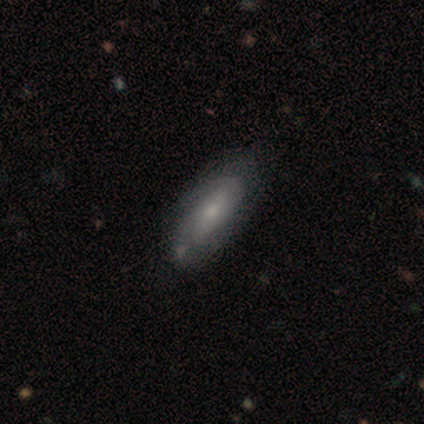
featured or disk 56%, smooth 38%, star or artifact 5%. Down the decision tree: edge-on disk — no (82%); bar — no (50%); spiral arms — yes (83%); spiral arm count — 2 (53%); spiral winding — tight (53%); bulge size — small (56%); merging — none (59%).